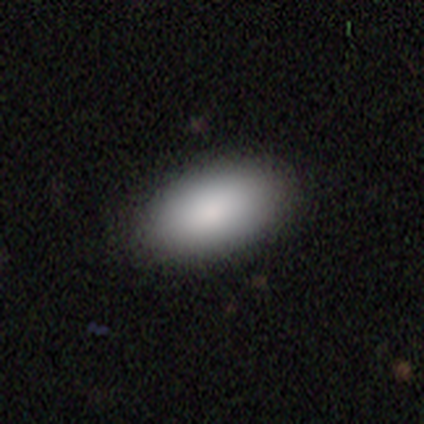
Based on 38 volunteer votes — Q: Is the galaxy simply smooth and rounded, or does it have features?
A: smooth — 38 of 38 (100%).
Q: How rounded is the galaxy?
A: in between — 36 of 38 (95%).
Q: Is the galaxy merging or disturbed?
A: none — 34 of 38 (89%).